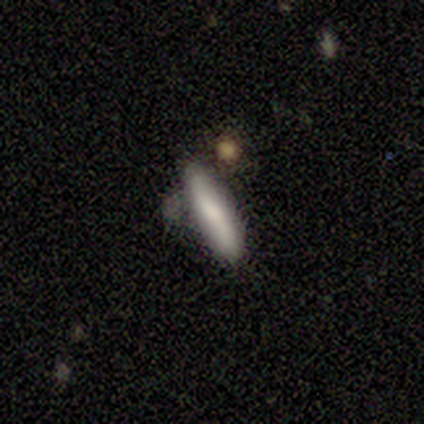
Smooth or featured: smooth — 72% (featured or disk — 20%)
How rounded: cigar-shaped — 69% (in between — 31%)
Merging: none — 57% (minor disturbance — 35%)